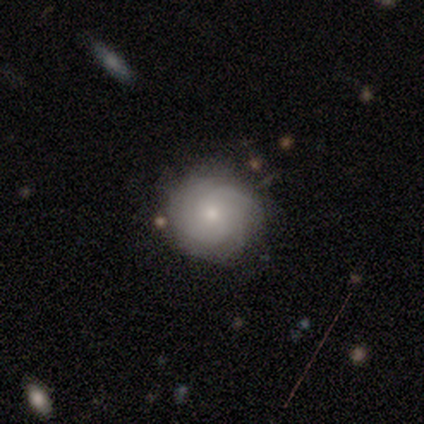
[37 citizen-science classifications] Smooth or featured: featured or disk — 51% (smooth — 43%)
Edge-on disk: no — 95% (yes — 5%)
Bar: no — 83% (weak — 17%)
Spiral arms: yes — 94% (no — 6%)
Spiral winding: tight — 47% (tied with medium — 47%)
Spiral arm count: 4 — 29% (tied with can't tell — 29%)
Bulge size: moderate — 50% (tied with small — 50%)
Merging: none — 83% (minor disturbance — 11%)